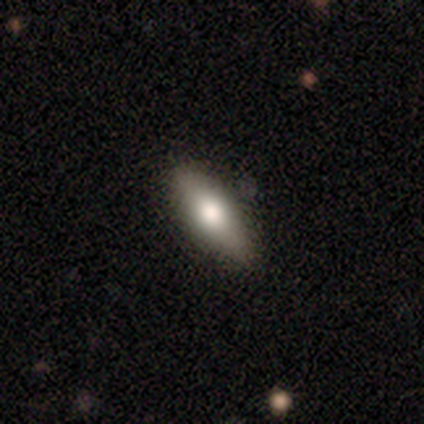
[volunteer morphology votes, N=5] Smooth or featured? smooth (80%)
How rounded? in between (100%)
Merging? none (60%)